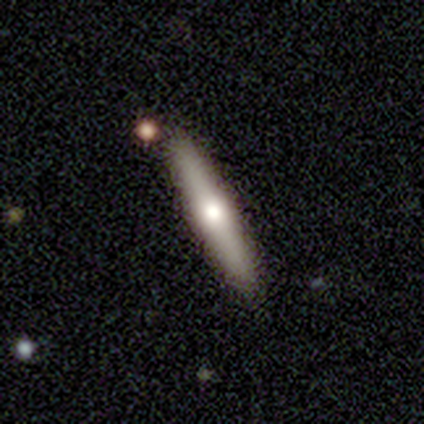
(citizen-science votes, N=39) Q: Smooth or featured?
A: featured or disk (59%); runner-up: smooth (41%)
Q: Edge-on disk?
A: yes (100%)
Q: Edge-on bulge?
A: rounded (87%); runner-up: none (9%)
Q: Merging?
A: none (87%); runner-up: minor disturbance (8%)